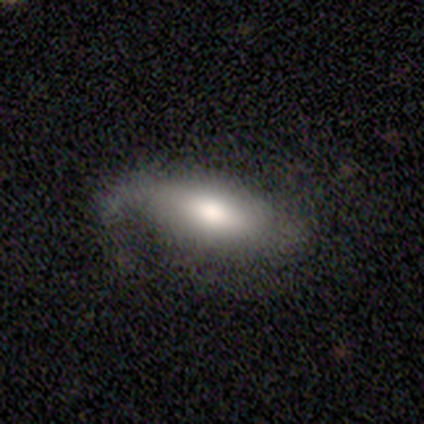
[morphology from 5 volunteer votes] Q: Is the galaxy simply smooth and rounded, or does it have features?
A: smooth — 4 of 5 (80%).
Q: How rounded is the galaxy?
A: in between — 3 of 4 (75%).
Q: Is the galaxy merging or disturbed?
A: minor disturbance — 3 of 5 (60%).